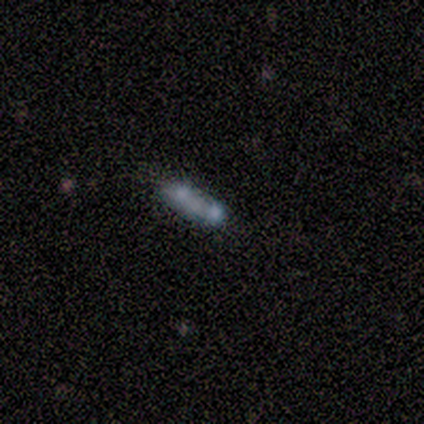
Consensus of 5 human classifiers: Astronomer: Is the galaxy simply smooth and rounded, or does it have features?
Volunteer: smooth — 60% (runner-up: star or artifact, 40%).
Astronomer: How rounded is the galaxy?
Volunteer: in between — 100%.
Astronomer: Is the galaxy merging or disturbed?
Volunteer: merger — 67%.